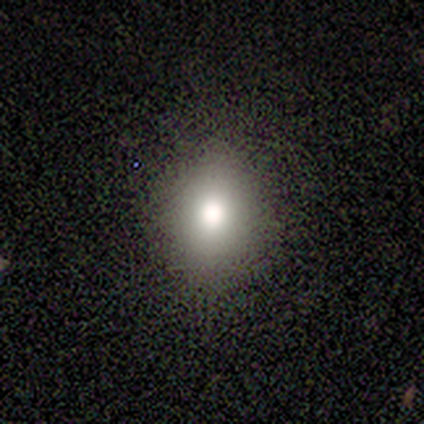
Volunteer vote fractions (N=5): Smooth or featured? smooth (80%)
How rounded? round (75%)
Merging? none (60%)